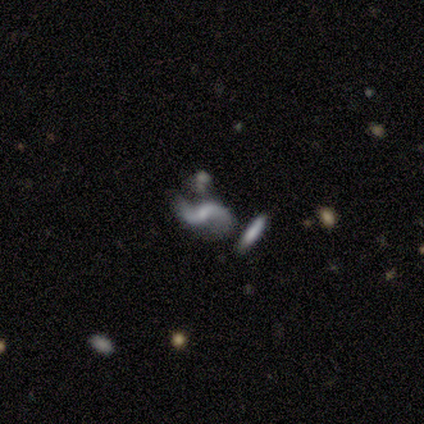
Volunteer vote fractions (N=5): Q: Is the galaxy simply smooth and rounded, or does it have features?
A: featured or disk — 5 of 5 (100%).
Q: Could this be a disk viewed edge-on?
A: no — 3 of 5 (60%).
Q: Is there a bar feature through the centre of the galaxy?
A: no — 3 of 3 (100%).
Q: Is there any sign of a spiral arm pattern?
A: yes — 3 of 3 (100%).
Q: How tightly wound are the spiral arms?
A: loose — 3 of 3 (100%).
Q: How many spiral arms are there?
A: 2 — 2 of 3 (67%).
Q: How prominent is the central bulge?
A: moderate — 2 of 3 (67%).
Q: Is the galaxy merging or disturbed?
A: major disturbance — 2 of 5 (40%).